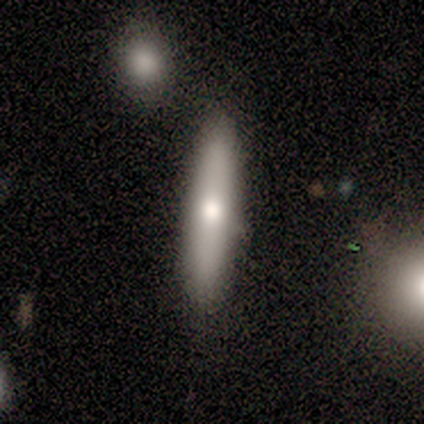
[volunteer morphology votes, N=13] smooth_or_featured: smooth (p=0.62) [alt: featured or disk p=0.38]
how_rounded: cigar-shaped (p=0.75) [alt: in between p=0.25]
merging: none (p=0.92) [alt: merger p=0.08]